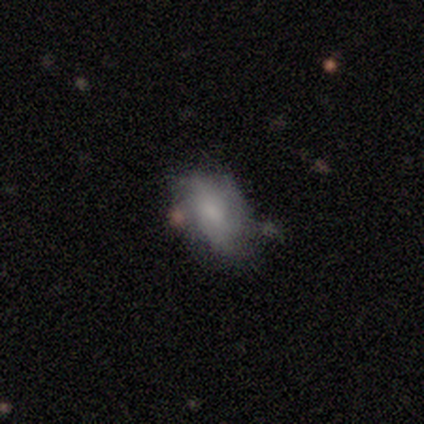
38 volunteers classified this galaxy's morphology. Overall: smooth (53%; featured or disk 39%). How rounded: in between (75%). Merging: none (74%).